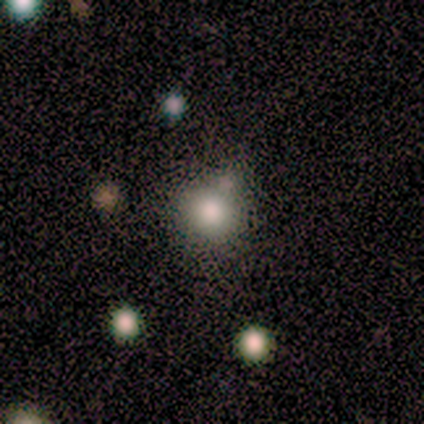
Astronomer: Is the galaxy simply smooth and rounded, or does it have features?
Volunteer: smooth — 80%.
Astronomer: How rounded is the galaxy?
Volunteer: round — 100%.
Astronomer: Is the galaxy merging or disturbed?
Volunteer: none — 50%.